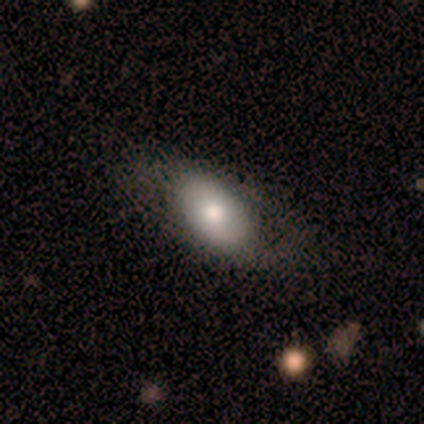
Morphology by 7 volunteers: Volunteers were most divided on "smooth or featured": smooth: 71%, featured or disk: 29%, star or artifact: 0%. More confident: merging — none (100%); how rounded — in between (80%).